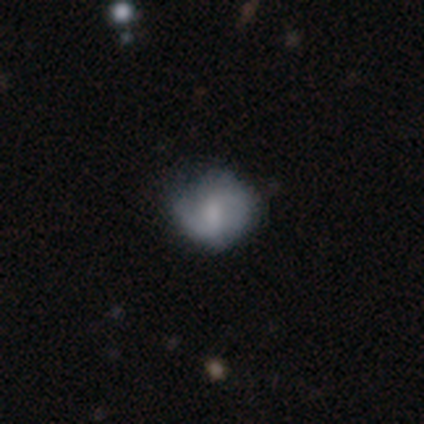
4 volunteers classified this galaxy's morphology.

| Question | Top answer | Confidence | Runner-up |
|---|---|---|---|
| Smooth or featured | smooth | 75% | featured or disk (25%) |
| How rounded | round | 67% | in between (33%) |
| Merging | none | 75% | minor disturbance (25%) |